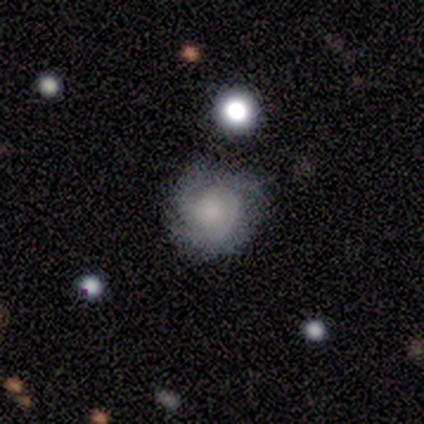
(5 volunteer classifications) Smooth or featured? featured or disk (60%)
Edge-on disk? no (100%)
Bar? no (100%)
Spiral arms? yes (100%)
Spiral winding? medium (67%)
Spiral arm count? 2 (100%)
Bulge size? moderate (33%, tied with small and none)
Merging? none (80%)